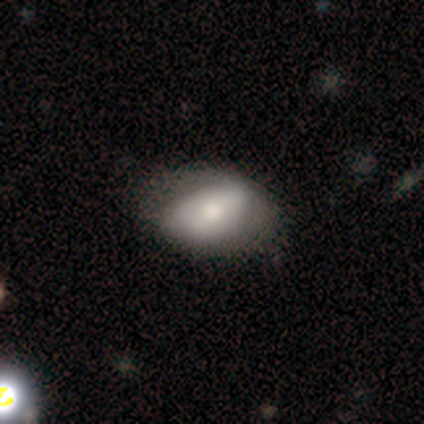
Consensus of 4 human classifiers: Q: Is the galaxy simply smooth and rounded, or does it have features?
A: smooth — 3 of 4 (75%).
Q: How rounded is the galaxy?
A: in between — 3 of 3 (100%).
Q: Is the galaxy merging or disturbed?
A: none — 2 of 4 (50%).